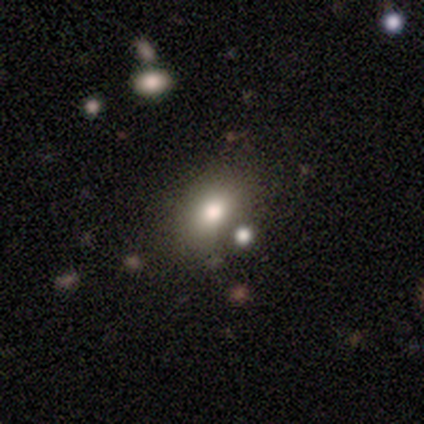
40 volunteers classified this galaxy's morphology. A smooth galaxy with no disk features (68%) that is in between round and cigar-shaped (78%). Merging: none (62%).